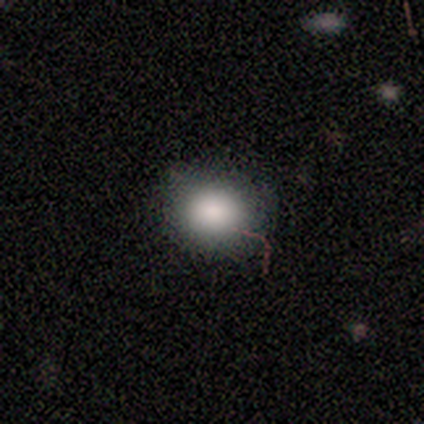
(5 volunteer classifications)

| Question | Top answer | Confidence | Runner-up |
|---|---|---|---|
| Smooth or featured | smooth | 100% | — |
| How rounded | in between | 60% | round (40%) |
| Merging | none | 80% | minor disturbance (20%) |